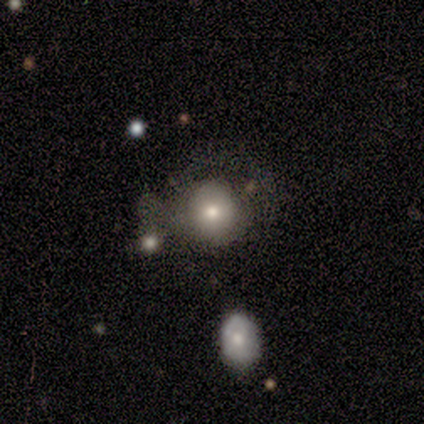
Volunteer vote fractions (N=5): smooth-or-featured: smooth: 80% | featured or disk: 20% | star or artifact: 0%
  how-rounded: round: 100% | in between: 0% | cigar-shaped: 0%
  merging: none: 60% | merger: 40% | minor disturbance: 0% | major disturbance: 0%